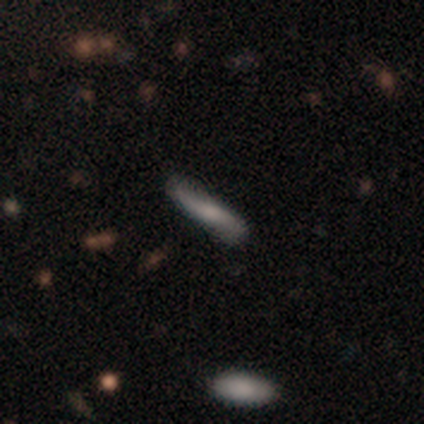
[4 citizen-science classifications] Smooth or featured: featured or disk — 75% (smooth — 25%)
Edge-on disk: no — 67% (yes — 33%)
Bar: no — 100%
Spiral arms: yes — 100%
Spiral winding: loose — 100%
Spiral arm count: 2 — 100%
Bulge size: moderate — 50% (tied with none — 50%)
Merging: none — 100%